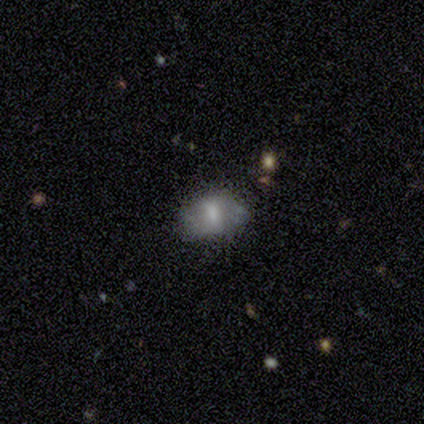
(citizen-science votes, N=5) Smooth or featured: featured or disk — 60% (smooth — 40%)
Edge-on disk: no — 100%
Bar: weak — 67% (no — 33%)
Spiral arms: yes — 67% (no — 33%)
Spiral winding: medium — 100%
Spiral arm count: 2 — 50% (tied with can't tell — 50%)
Bulge size: large — 33% (tied with moderate — 33%; small — 33%)
Merging: none — 60% (minor disturbance — 40%)